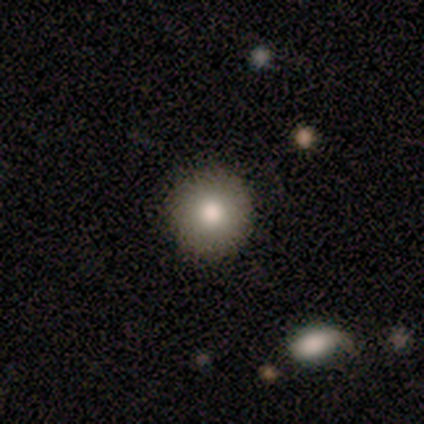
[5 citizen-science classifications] Smooth or featured? smooth (60%)
How rounded? round (100%)
Merging? none (50%, tied with minor disturbance)